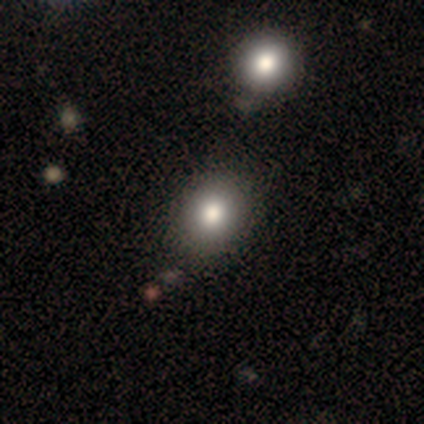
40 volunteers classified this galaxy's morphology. Q: Smooth or featured?
A: smooth (80%); runner-up: star or artifact (15%)
Q: How rounded?
A: round (66%); runner-up: in between (34%)
Q: Merging?
A: none (76%); runner-up: minor disturbance (15%)